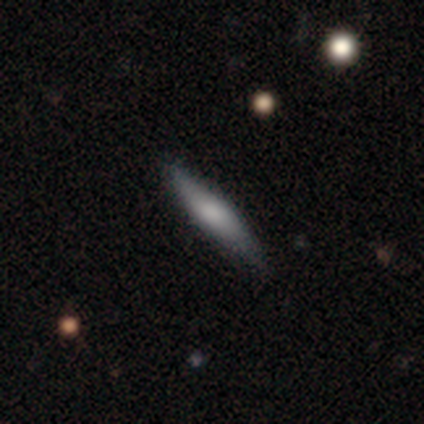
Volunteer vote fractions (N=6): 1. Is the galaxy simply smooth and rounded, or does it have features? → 67% smooth, 33% featured or disk, 0% star or artifact.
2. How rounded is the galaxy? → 100% cigar-shaped, 0% round, 0% in between.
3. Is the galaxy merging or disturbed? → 100% none, 0% minor disturbance, 0% major disturbance, 0% merger.